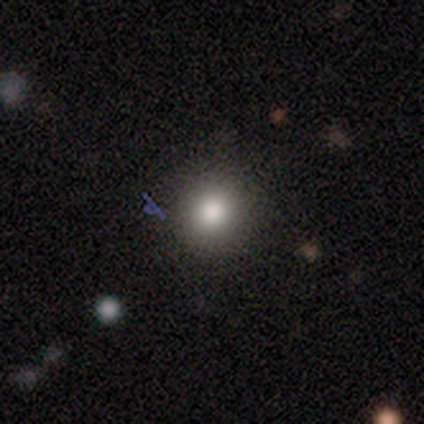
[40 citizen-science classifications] A smooth galaxy with no disk features (92%) that is round (97%).

Vote fractions:
- Smooth or featured? smooth: 92% / star or artifact: 8% / featured or disk: 0%
- How rounded? round: 97% / in between: 3% / cigar-shaped: 0%
- Merging? none: 70% / minor disturbance: 3% / merger: 3% / major disturbance: 0%